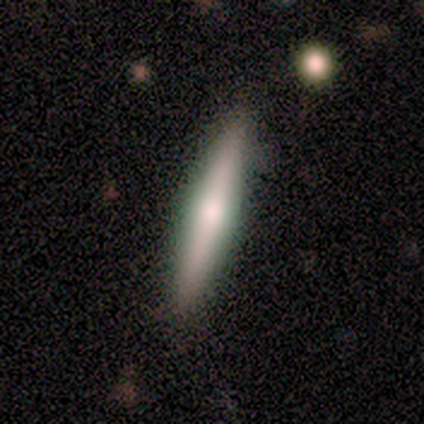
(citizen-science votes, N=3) Morphology: type=featured or disk (67%); edge-on=yes (100%); edge-on bulge=rounded (100%); merging=none (67%).